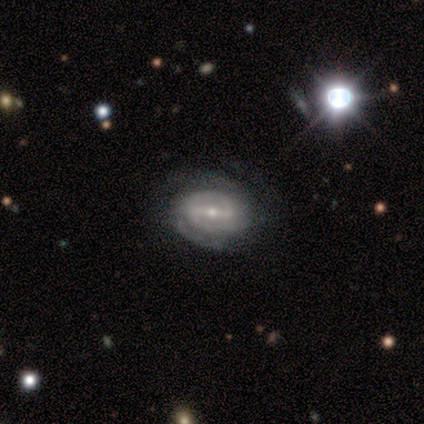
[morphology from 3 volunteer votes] Smooth or featured? star or artifact (67%)